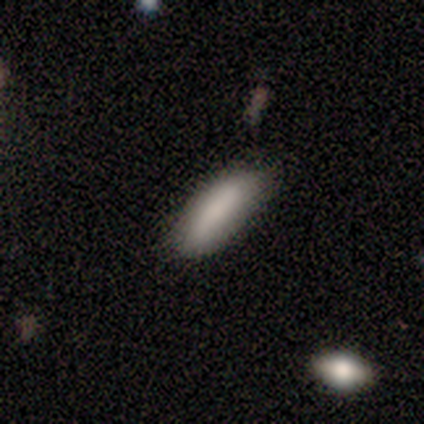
smooth 80%, featured or disk 20%, star or artifact 0%. Down the decision tree: how rounded — in between (100%); merging — minor disturbance (60%).